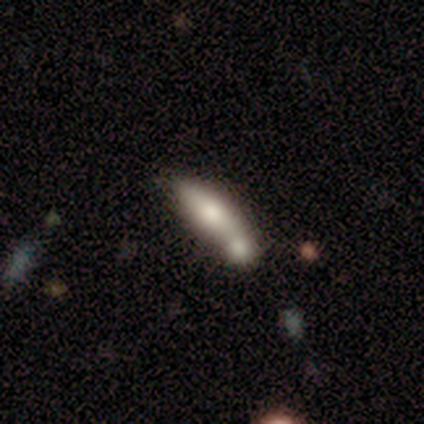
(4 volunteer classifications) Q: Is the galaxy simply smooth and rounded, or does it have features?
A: smooth — 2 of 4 (50%).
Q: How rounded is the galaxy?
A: in between — 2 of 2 (100%).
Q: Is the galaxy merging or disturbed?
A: merger — 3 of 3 (100%).